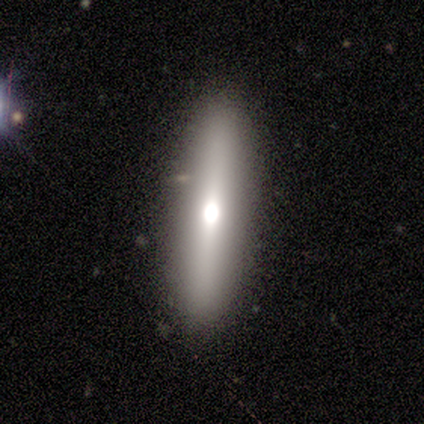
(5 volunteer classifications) Smooth or featured?
  - featured or disk: 80% *
  - smooth: 20%
  - star or artifact: 0%
Edge-on disk?
  - yes: 75% *
  - no: 25%
Edge-on bulge?
  - rounded: 100% *
  - boxy: 0%
  - none: 0%
Merging?
  - none: 100% *
  - minor disturbance: 0%
  - major disturbance: 0%
  - merger: 0%